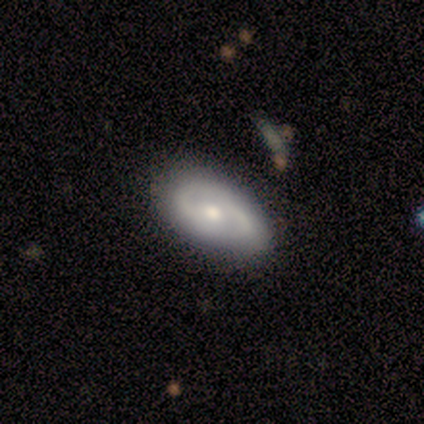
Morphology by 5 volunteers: Overall: featured or disk (80%). Edge-on disk: no (100%). Bar: no (75%). Spiral arms: yes (75%). Spiral arm count: 2 (67%; 3 33%). Spiral winding: medium (100%). Bulge size: moderate (75%). Merging: none (80%).